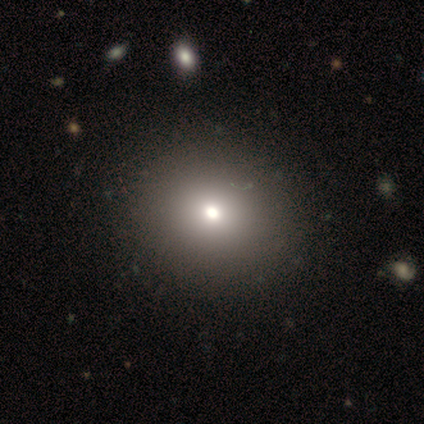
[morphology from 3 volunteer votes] This is clearly a smooth galaxy (100%). How rounded: likely round (67%). Merging: clearly none (100%).